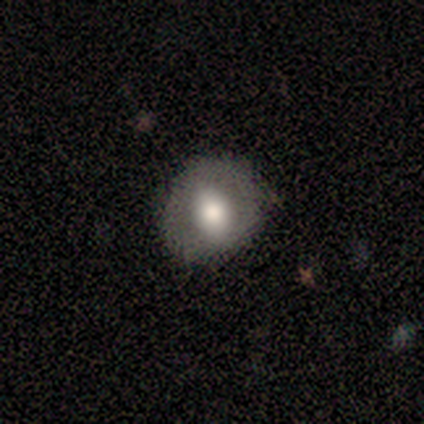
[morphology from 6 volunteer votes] This appears to be a smooth galaxy with no disk features (67%) that is round (75%). Merging: none (80%).